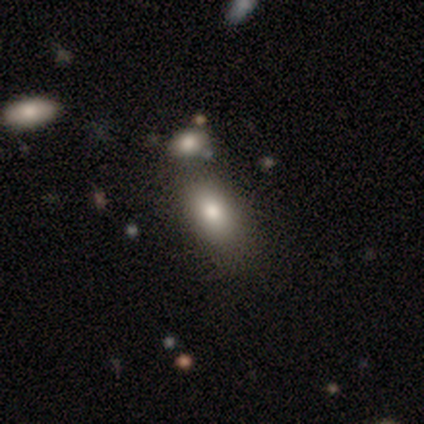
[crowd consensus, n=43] Smooth or featured? 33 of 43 (77%) said smooth. How rounded? 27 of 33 (82%) said in between. Merging? 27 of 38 (71%) said none.